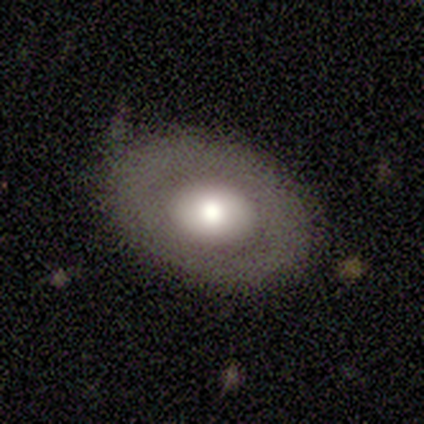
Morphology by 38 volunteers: Q: Smooth or featured?
A: smooth (63%); runner-up: featured or disk (37%)
Q: How rounded?
A: in between (58%); runner-up: round (42%)
Q: Merging?
A: none (71%); runner-up: minor disturbance (18%)